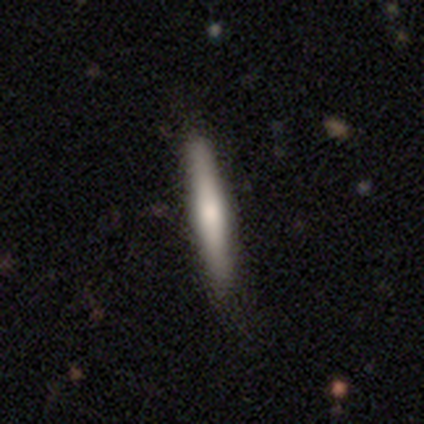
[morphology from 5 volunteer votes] A smooth galaxy with no disk features (60%) that is cigar-shaped (100%). Merging: none (80%).